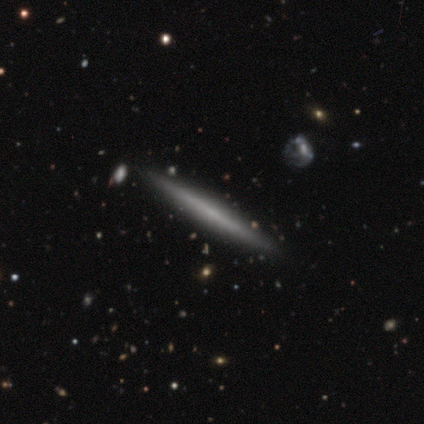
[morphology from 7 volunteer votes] Smooth or featured?
  - featured or disk: 71% *
  - smooth: 29%
  - star or artifact: 0%
Edge-on disk?
  - yes: 100% *
  - no: 0%
Edge-on bulge?
  - none: 100% *
  - boxy: 0%
  - rounded: 0%
Merging?
  - none: 100% *
  - minor disturbance: 0%
  - major disturbance: 0%
  - merger: 0%